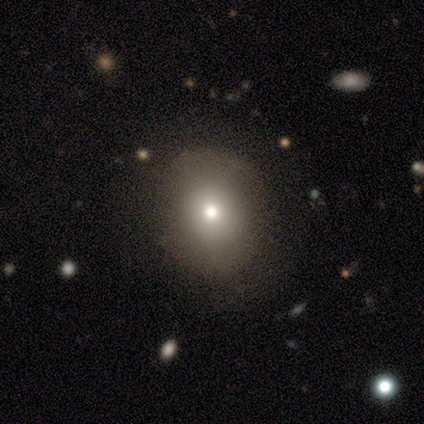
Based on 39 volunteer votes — A smooth galaxy with no disk features (82%) that is round (69%). Merging: none (56%).